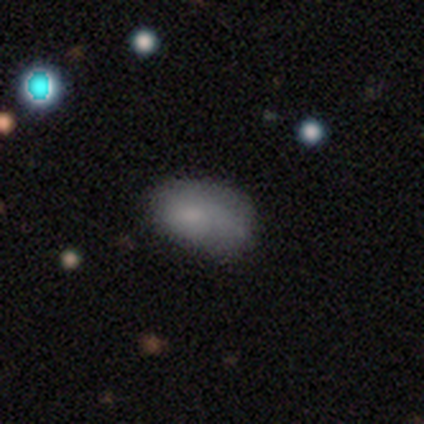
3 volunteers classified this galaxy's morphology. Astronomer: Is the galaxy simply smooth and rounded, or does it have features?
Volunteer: smooth — 67%.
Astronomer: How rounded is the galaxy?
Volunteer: in between — 100%.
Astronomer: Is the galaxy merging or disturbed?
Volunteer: minor disturbance — 100%.